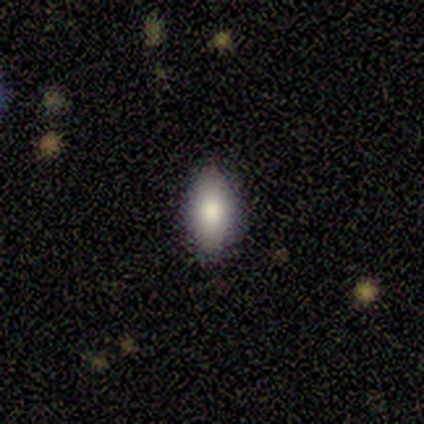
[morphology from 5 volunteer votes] A smooth galaxy with no disk features (100%) that is in between round and cigar-shaped (100%).

Vote fractions:
- Smooth or featured? smooth: 100% / featured or disk: 0% / star or artifact: 0%
- How rounded? in between: 100% / round: 0% / cigar-shaped: 0%
- Merging? none: 100% / minor disturbance: 0% / major disturbance: 0% / merger: 0%